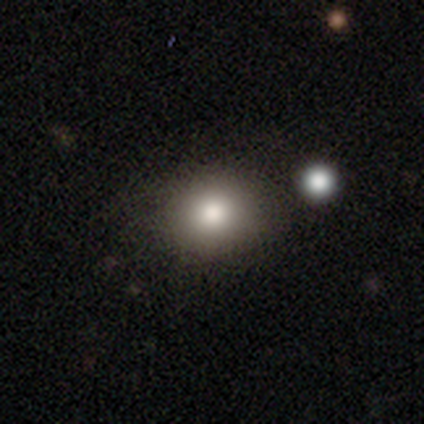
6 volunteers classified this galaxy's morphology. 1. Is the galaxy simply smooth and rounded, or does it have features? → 67% smooth, 33% star or artifact, 0% featured or disk.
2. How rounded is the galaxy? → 75% in between, 25% round, 0% cigar-shaped.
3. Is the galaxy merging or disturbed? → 75% none, 25% minor disturbance, 0% major disturbance, 0% merger.